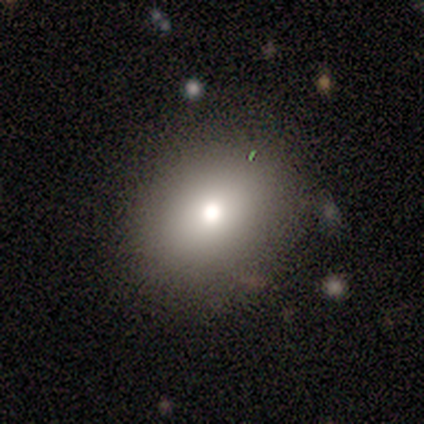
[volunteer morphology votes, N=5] A smooth galaxy with no disk features (100%) that is round (60%). Merging: none (80%).